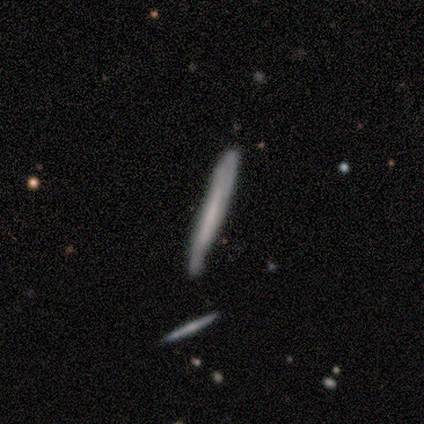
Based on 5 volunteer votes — This appears to be a featured or disk galaxy (80%) viewed edge-on (100%) with no central bulge (100%). Merging: none (60%).